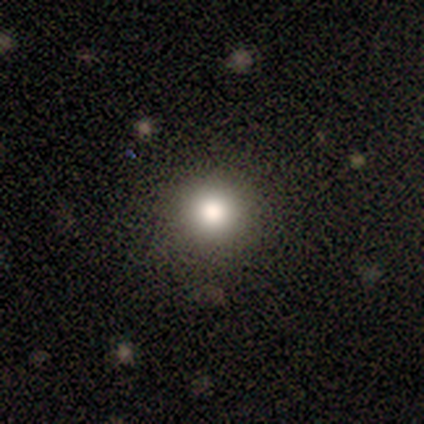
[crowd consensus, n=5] Smooth or featured? 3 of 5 (60%) said smooth. How rounded? 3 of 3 (100%) said round. Merging? 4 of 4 (100%) said none.